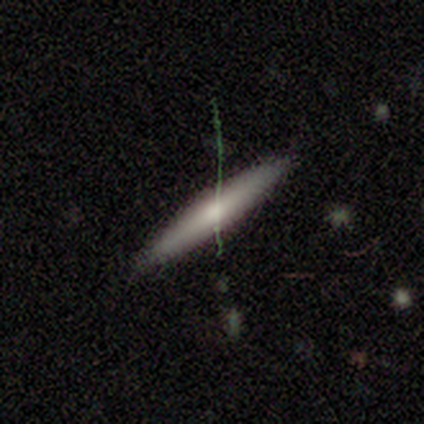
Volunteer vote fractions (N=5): Overall: featured or disk (60%; smooth 40%). Edge-on disk: yes (100%). Edge-on bulge: rounded (67%; none 33%). Merging: none (100%).